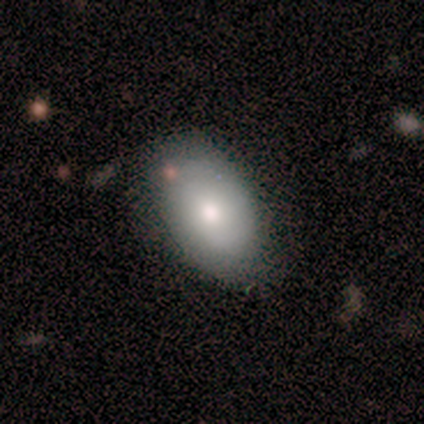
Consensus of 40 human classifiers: This appears to be a smooth galaxy with no disk features (75%) that is in between round and cigar-shaped (90%). Merging: none (72%).